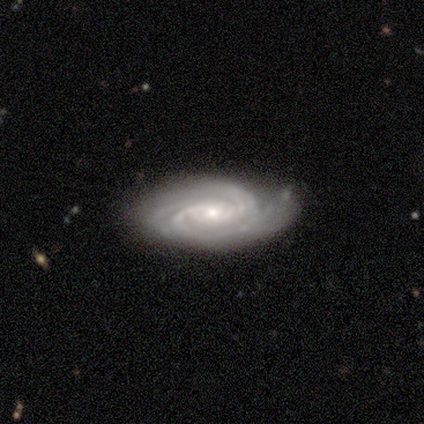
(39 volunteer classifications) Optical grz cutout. It shows a featured or disk galaxy (97%) with no bar (58%), 3 (33%) tight (67%) spiral arms (100%) and a small central bulge (69%). Merging: none (72%).